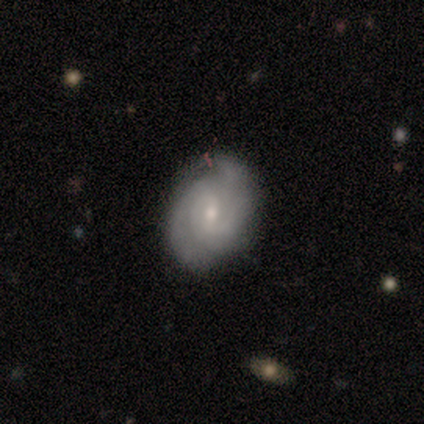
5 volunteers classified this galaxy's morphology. A featured or disk galaxy (80%) with no bar (50%), 2 (75%) tight (75%) spiral arms (100%) and a moderate central bulge (75%). Merging: none (80%).